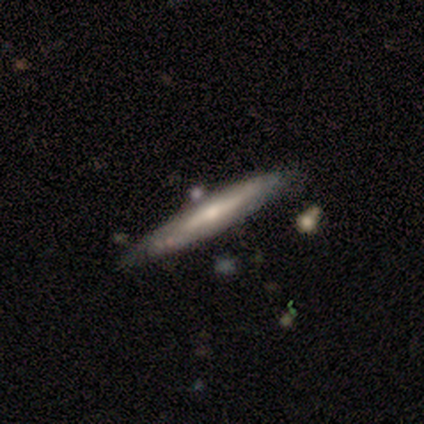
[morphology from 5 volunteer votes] smooth 60%, featured or disk 40%, star or artifact 0%. Down the decision tree: how rounded — cigar-shaped (100%); merging — minor disturbance (60%).